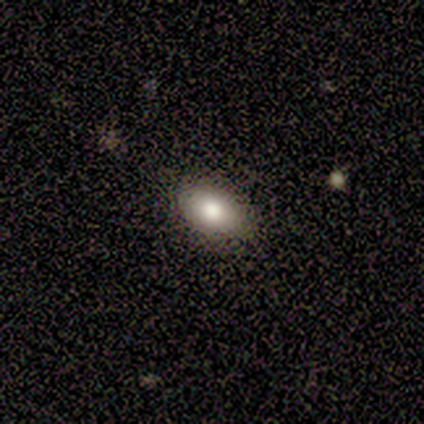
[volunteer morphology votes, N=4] Smooth or featured: smooth — 100%
How rounded: in between — 100%
Merging: none — 100%